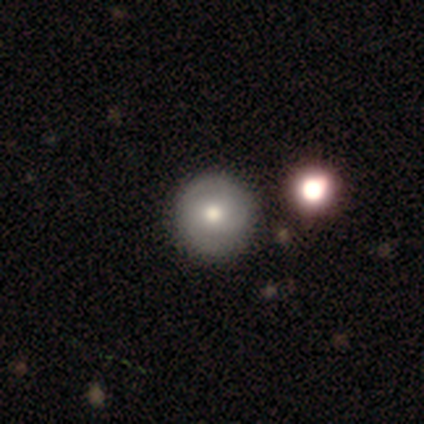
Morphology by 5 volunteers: Overall: featured or disk (60%; smooth 40%). Edge-on disk: no (100%). Bar: no (100%). Spiral arms: no (67%; yes 33%). Bulge size: moderate (100%). Merging: none (80%).